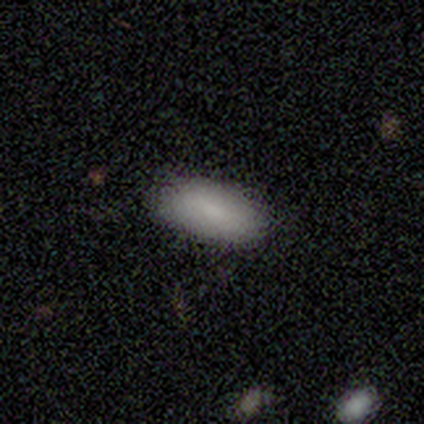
This is clearly a smooth galaxy (100%). How rounded: likely in between (75%). Merging: clearly none (100%).